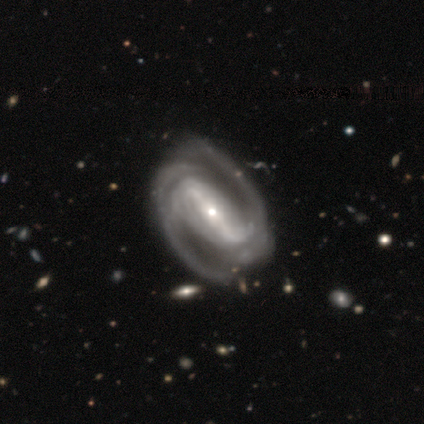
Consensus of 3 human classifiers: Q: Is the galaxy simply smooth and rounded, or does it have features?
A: featured or disk — 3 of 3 (100%).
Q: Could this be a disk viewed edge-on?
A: no — 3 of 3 (100%).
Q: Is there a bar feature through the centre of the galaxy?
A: strong — 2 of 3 (67%).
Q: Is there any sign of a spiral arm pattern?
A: yes — 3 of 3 (100%).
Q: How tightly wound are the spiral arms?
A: tight — 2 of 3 (67%).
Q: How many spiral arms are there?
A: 2 — 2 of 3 (67%).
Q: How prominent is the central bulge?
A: small — 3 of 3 (100%).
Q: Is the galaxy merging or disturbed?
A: minor disturbance — 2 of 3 (67%).